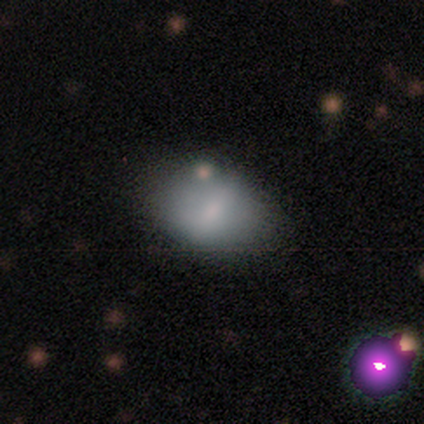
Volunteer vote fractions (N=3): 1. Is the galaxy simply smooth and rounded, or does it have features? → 33% smooth (tied), 33% featured or disk (tied), 33% star or artifact (tied).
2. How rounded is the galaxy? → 100% in between, 0% round, 0% cigar-shaped.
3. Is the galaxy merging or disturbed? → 100% none, 0% minor disturbance, 0% major disturbance, 0% merger.